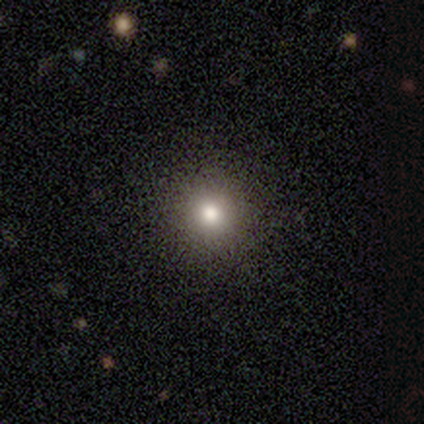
Overall: smooth (58%; star or artifact 36%). How rounded: round (100%). Merging: none (91%).